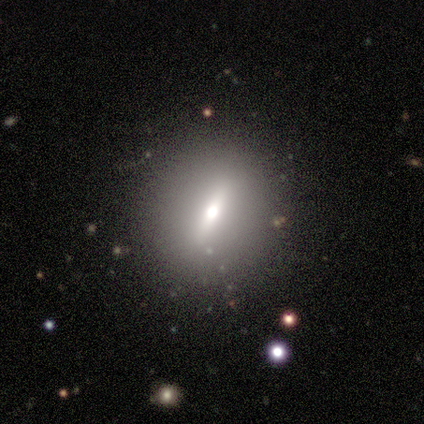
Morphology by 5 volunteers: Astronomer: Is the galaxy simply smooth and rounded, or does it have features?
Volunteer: featured or disk — 80%.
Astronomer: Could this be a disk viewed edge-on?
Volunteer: yes — 50%, tied with no at 50%.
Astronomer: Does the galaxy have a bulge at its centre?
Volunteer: boxy — 50%, tied with rounded at 50%.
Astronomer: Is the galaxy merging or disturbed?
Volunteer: none — 100%.